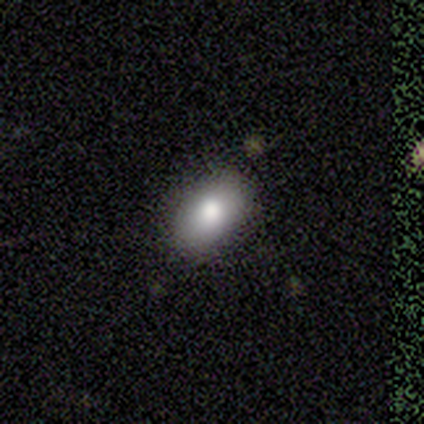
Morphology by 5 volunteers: smooth_or_featured: smooth (p=1.00)
how_rounded: in between (p=0.80) [alt: round p=0.20]
merging: none (p=0.60) [alt: minor disturbance p=0.20]